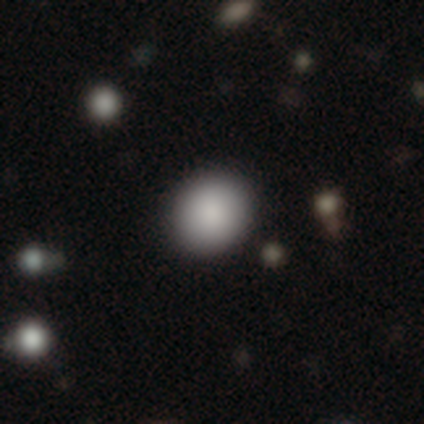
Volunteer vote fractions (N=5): Overall: smooth (100%). How rounded: round (100%). Merging: none (100%).